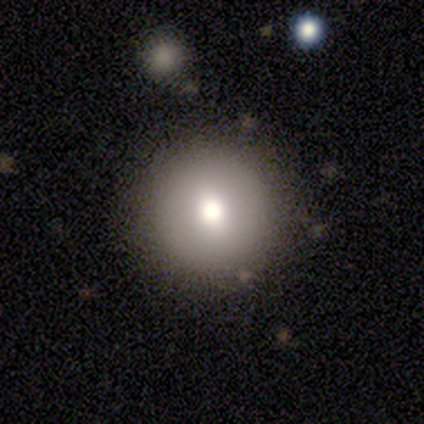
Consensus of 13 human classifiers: Morphology: type=smooth (62%); roundness=round (100%); merging=none (83%).